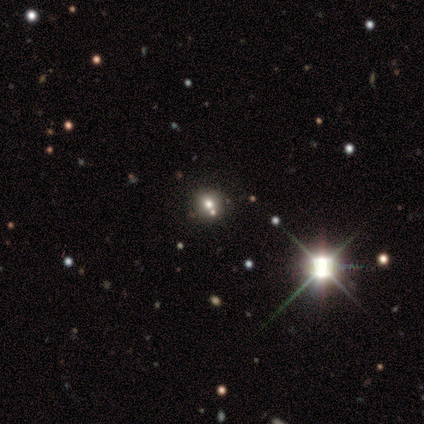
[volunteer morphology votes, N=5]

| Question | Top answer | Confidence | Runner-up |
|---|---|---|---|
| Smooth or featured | smooth | 80% | star or artifact (20%) |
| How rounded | round | 75% | in between (25%) |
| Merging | none | 75% | merger (25%) |